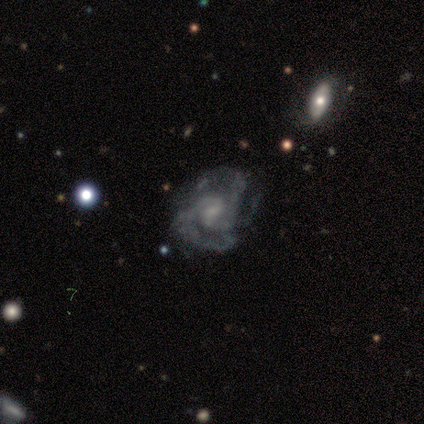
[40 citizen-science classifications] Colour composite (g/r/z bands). It shows a featured or disk galaxy (62%) with a weak bar (44%, tied with no), 3 (57%) medium (48%) spiral arms (84%) and a small central bulge (52%). Merging: none (70%).